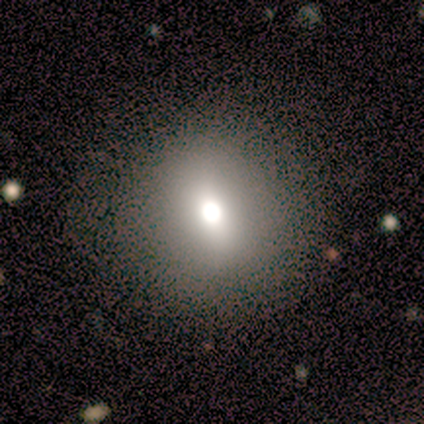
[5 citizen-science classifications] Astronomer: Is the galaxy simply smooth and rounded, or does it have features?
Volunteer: smooth — 80%.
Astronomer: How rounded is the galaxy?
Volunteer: round — 75%.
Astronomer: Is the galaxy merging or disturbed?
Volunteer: none — 100%.